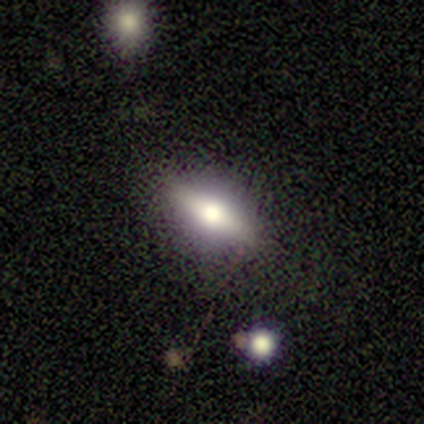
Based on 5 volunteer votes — This is likely a featured or disk galaxy (60%). It is likely viewed edge-on (67%). Edge-on bulge: clearly rounded (100%). Merging: likely none (60%).